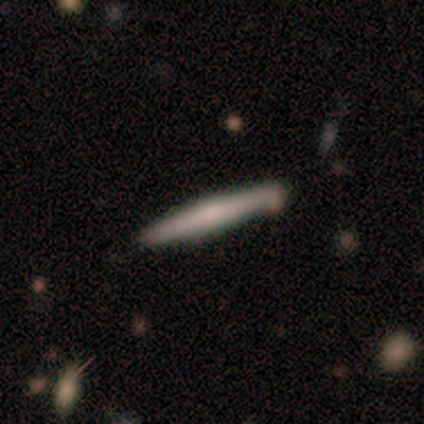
This is clearly a featured or disk galaxy (86%). It is clearly viewed edge-on (100%). Edge-on bulge: possibly none (50%). Merging: likely none (71%).